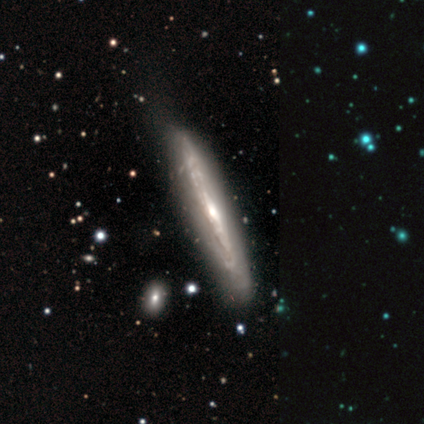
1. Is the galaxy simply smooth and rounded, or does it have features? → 82% featured or disk, 18% smooth, 0% star or artifact.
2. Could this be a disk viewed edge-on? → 94% yes, 6% no.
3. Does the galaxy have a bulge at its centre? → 63% rounded, 37% none, 0% boxy.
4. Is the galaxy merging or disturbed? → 72% none, 21% minor disturbance, 8% major disturbance, 0% merger.